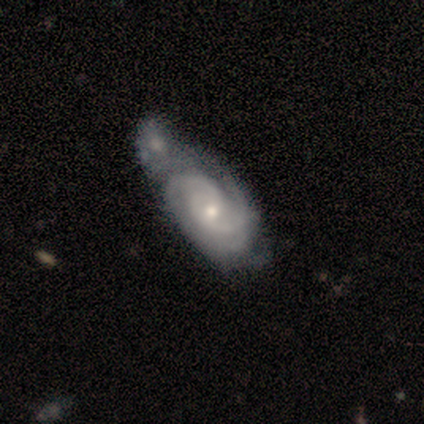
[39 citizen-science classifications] Smooth or featured? featured or disk (97%)
Edge-on disk? no (97%)
Bar? no (76%)
Spiral arms? yes (97%)
Spiral winding? tight (72%)
Spiral arm count? 2 (50%)
Bulge size? small (49%)
Merging? merger (59%)